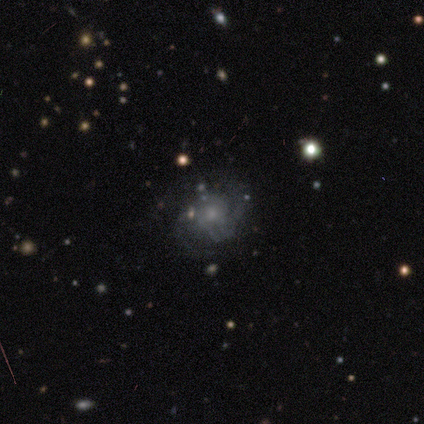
smooth-or-featured: featured or disk: 80% | smooth: 20% | star or artifact: 0%
  disk-edge-on: no: 100% | yes: 0%
    bar: no: 100% | strong: 0% | weak: 0%
    has-spiral-arms: yes: 100% | no: 0%
      spiral-winding: medium: 50% | tight: 25% | loose: 25%
      spiral-arm-count: 2: 75% | can't tell: 25% | 1: 0% | 3: 0% | 4: 0% | more than 4: 0%
    bulge-size: small: 50% | moderate: 25% | none: 25% | dominant: 0% | large: 0%
  merging: none: 80% | major disturbance: 20% | minor disturbance: 0% | merger: 0%